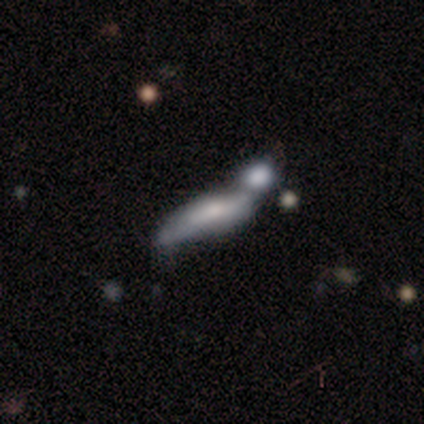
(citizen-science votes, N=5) Volunteers were most divided on "smooth or featured": smooth: 60%, featured or disk: 40%, star or artifact: 0%. More confident: how rounded — cigar-shaped (67%); merging — merger (60%).